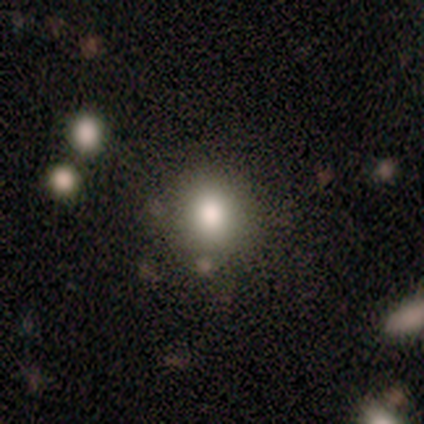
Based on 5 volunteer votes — Smooth or featured: smooth — 80% (featured or disk — 20%)
How rounded: round — 100%
Merging: none — 100%